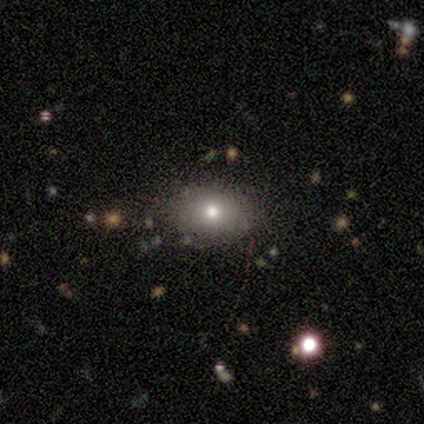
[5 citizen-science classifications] This is clearly a smooth galaxy (80%). How rounded: likely in between (75%). Merging: clearly none (80%).